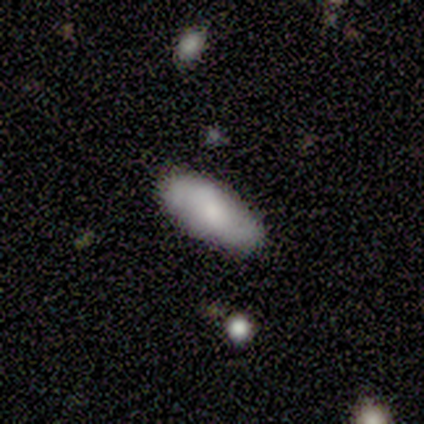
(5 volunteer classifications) A smooth galaxy with no disk features (80%) that is in between round and cigar-shaped (100%).

Vote fractions:
- Smooth or featured? smooth: 80% / featured or disk: 20% / star or artifact: 0%
- How rounded? in between: 100% / round: 0% / cigar-shaped: 0%
- Merging? none: 100% / minor disturbance: 0% / major disturbance: 0% / merger: 0%